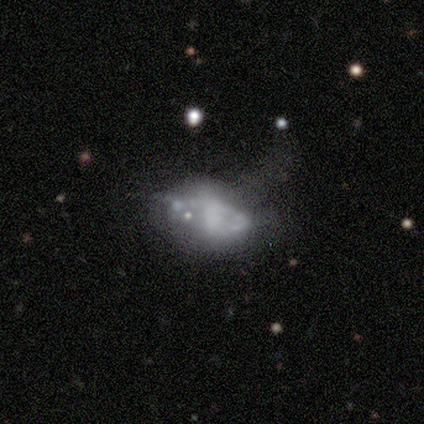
Smooth or featured: featured or disk — 59% (smooth — 31%)
Edge-on disk: no — 91% (yes — 9%)
Bar: no — 86% (weak — 10%)
Spiral arms: no — 76% (yes — 24%)
Bulge size: none — 81% (moderate — 14%)
Merging: major disturbance — 51% (merger — 20%)